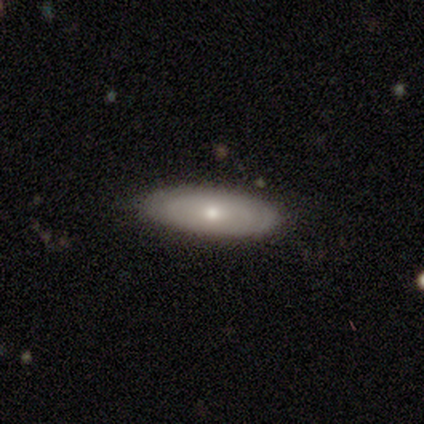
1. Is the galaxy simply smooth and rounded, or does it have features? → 80% featured or disk, 20% smooth, 0% star or artifact.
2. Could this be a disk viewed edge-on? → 50% yes (tied), 50% no (tied).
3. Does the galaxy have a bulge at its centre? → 100% rounded, 0% boxy, 0% none.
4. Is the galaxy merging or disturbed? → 100% none, 0% minor disturbance, 0% major disturbance, 0% merger.